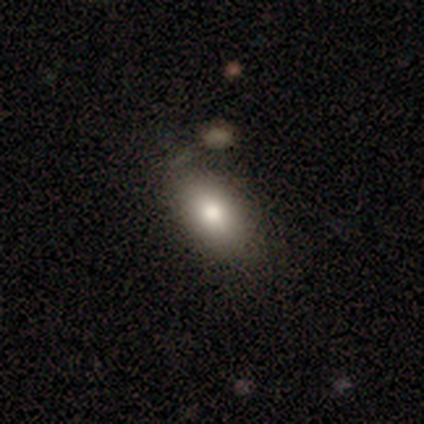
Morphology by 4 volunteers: This is possibly a smooth galaxy (50%). How rounded: possibly in between (50%, tied with cigar-shaped). Merging: clearly none (100%).